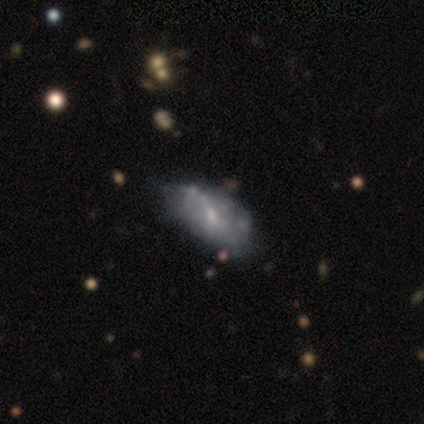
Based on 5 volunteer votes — smooth 80%, featured or disk 20%, star or artifact 0%. Down the decision tree: how rounded — in between (100%); merging — none (60%).